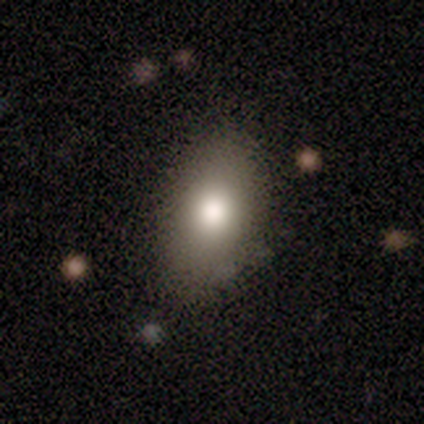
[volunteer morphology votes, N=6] Smooth or featured? smooth (83%)
How rounded? in between (100%)
Merging? none (50%, tied with minor disturbance)